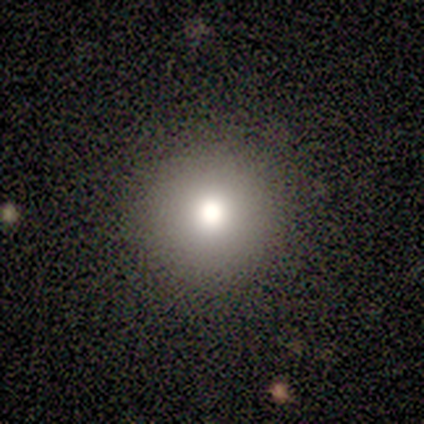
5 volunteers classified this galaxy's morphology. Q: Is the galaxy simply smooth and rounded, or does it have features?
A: smooth — 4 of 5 (80%).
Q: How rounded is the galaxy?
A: round — 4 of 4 (100%).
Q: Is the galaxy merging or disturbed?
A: none — 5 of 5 (100%).